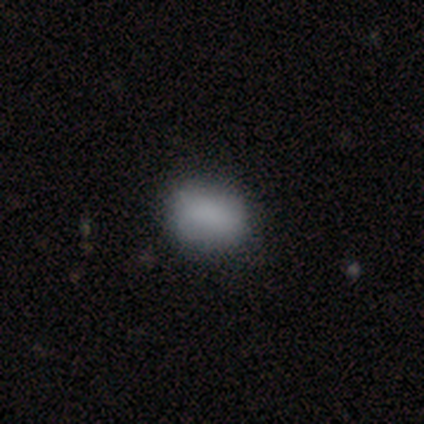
A smooth galaxy with no disk features (80%) that is in between round and cigar-shaped (75%).

Vote fractions:
- Smooth or featured? smooth: 80% / featured or disk: 20% / star or artifact: 0%
- How rounded? in between: 75% / round: 25% / cigar-shaped: 0%
- Merging? none: 80% / minor disturbance: 20% / major disturbance: 0% / merger: 0%